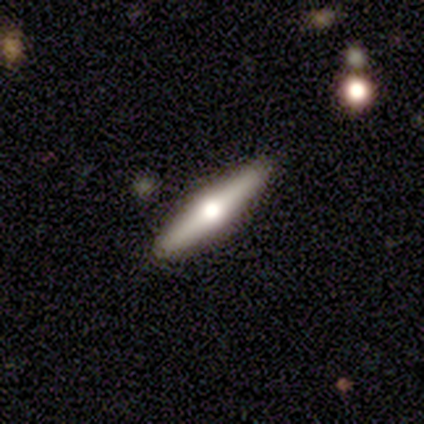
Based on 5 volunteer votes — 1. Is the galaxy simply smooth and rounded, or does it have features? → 60% featured or disk, 40% smooth, 0% star or artifact.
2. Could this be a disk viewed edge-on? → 100% yes, 0% no.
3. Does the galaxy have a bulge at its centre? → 100% rounded, 0% boxy, 0% none.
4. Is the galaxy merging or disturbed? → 100% none, 0% minor disturbance, 0% major disturbance, 0% merger.